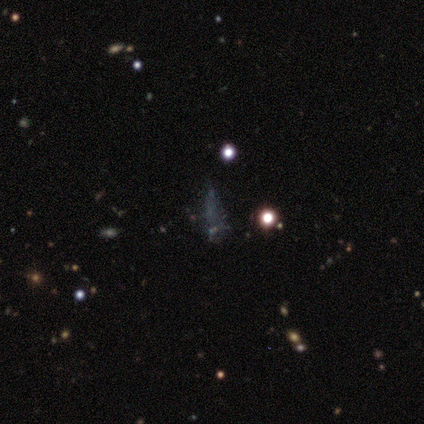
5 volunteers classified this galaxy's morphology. Smooth or featured?
  - star or artifact: 80% *
  - smooth: 20%
  - featured or disk: 0%